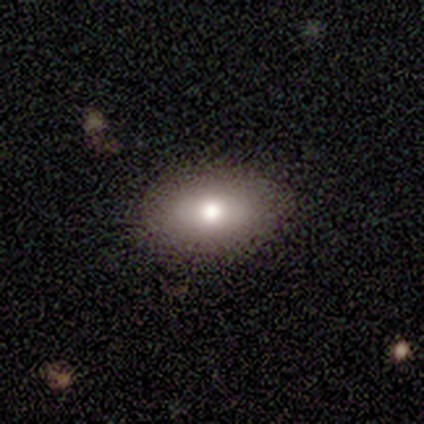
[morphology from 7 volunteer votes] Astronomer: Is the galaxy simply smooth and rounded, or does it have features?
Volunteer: smooth — 100%.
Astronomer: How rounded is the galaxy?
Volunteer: in between — 86%.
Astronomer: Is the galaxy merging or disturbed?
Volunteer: none — 86%.